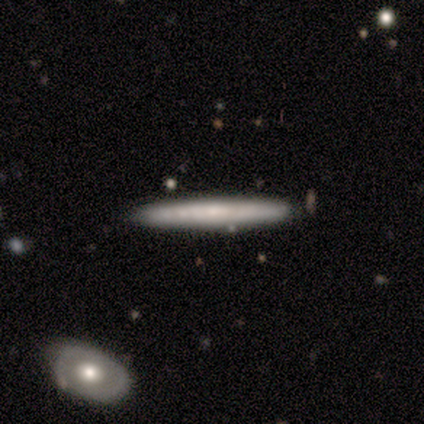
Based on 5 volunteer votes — smooth 60%, featured or disk 20%, star or artifact 20%. Down the decision tree: how rounded — cigar-shaped (100%); merging — none (100%).